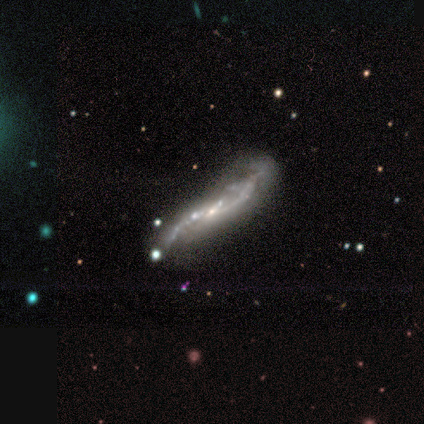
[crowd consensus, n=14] smooth_or_featured: featured or disk (p=0.71) [alt: smooth p=0.14]
disk_edge_on: no (p=0.80) [alt: yes p=0.20]
bar: no (p=0.62) [alt: weak p=0.38]
has_spiral_arms: yes (p=0.88) [alt: no p=0.12]
spiral_winding: loose (p=0.86) [alt: medium p=0.14]
spiral_arm_count: 2 (p=0.57) [alt: 1 p=0.29]
bulge_size: small (p=0.62) [alt: none p=0.25]
merging: none (p=0.33) [tied with: major disturbance p=0.33]